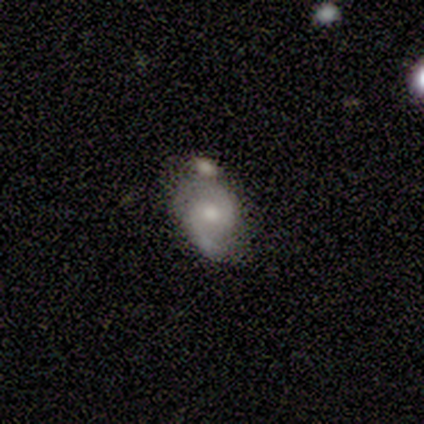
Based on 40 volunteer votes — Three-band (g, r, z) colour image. It shows a featured or disk galaxy (68%) with no bar (52%), 2 (96%) medium (38%, tied with loose) spiral arms (96%) and a moderate central bulge (70%). Merging: none (44%).